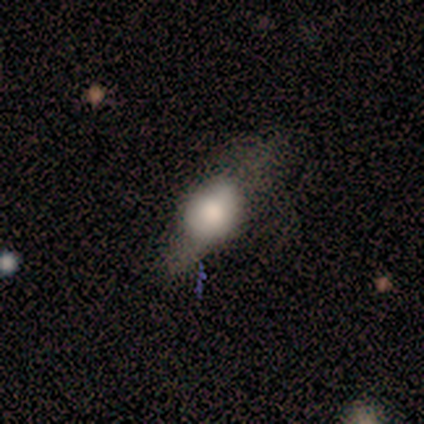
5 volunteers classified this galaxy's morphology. A smooth galaxy with no disk features (40%, tied with featured or disk) that is round (50%, tied with in between).

Vote fractions:
- Smooth or featured? smooth: 40% (tied) / featured or disk: 40% (tied) / star or artifact: 20%
- How rounded? round: 50% (tied) / in between: 50% (tied) / cigar-shaped: 0%
- Merging? none: 50% (tied) / minor disturbance: 50% (tied) / major disturbance: 0% / merger: 0%